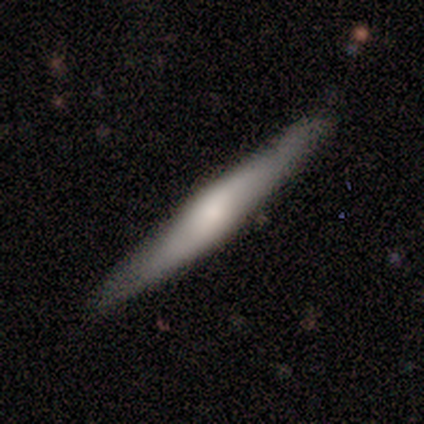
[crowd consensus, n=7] A featured or disk galaxy (57%) viewed edge-on (75%) with no central bulge (67%). Merging: none (71%).